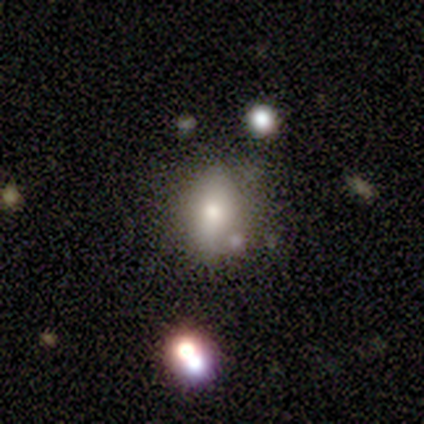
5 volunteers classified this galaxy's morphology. Smooth or featured: smooth — 80% (featured or disk — 20%)
How rounded: in between — 75% (round — 25%)
Merging: none — 80% (minor disturbance — 20%)